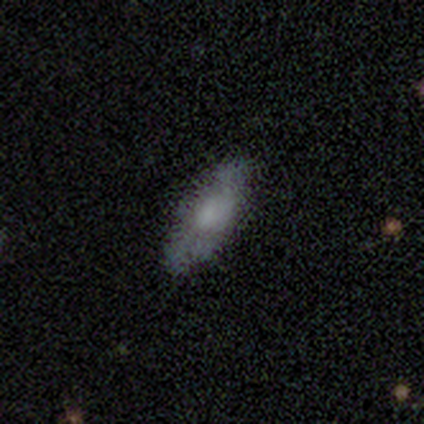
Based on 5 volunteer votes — Overall: smooth (60%; featured or disk 40%). How rounded: in between (67%; cigar-shaped 33%). Merging: none (100%).